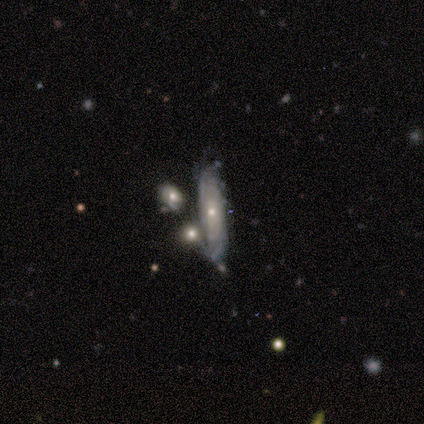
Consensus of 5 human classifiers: A smooth galaxy with no disk features (40%, tied with featured or disk) that is cigar-shaped (100%).

Vote fractions:
- Smooth or featured? smooth: 40% (tied) / featured or disk: 40% (tied) / star or artifact: 20%
- How rounded? cigar-shaped: 100% / round: 0% / in between: 0%
- Merging? none: 75% / merger: 25% / minor disturbance: 0% / major disturbance: 0%